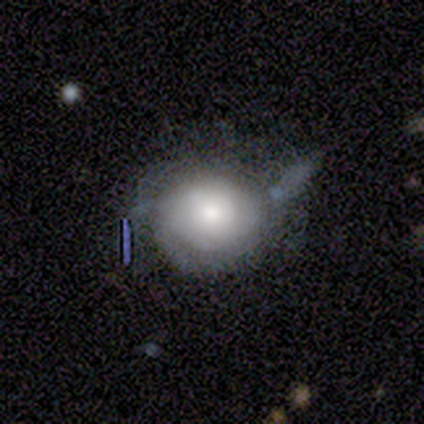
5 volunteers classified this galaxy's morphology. A featured or disk galaxy (60%) with no bar (67%), tight (67%) spiral arms (100%) and a moderate central bulge (67%).

Vote fractions:
- Smooth or featured? featured or disk: 60% / smooth: 20% / star or artifact: 20%
- Edge-on disk? no: 100% / yes: 0%
- Bar? no: 67% / weak: 33% / strong: 0%
- Spiral arms? yes: 100% / no: 0%
- Spiral winding? tight: 67% / medium: 33% / loose: 0%
- Spiral arm count? can't tell: 67% / 2: 33% / 1: 0% / 3: 0% / 4: 0% / more than 4: 0%
- Bulge size? moderate: 67% / large: 33% / dominant: 0% / small: 0% / none: 0%
- Merging? minor disturbance: 75% / major disturbance: 25% / none: 0% / merger: 0%